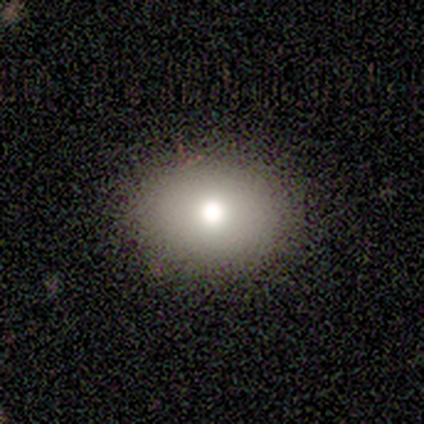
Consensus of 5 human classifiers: Morphology: type=smooth (80%); roundness=round (75%); merging=none (100%).